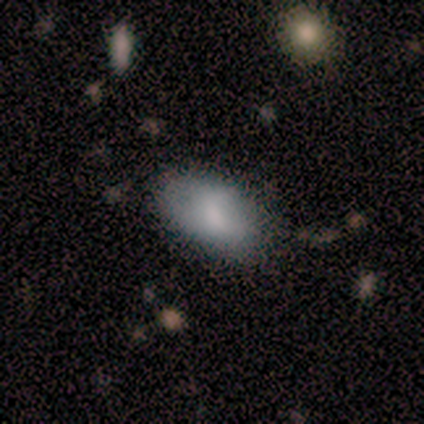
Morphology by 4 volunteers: Smooth or featured? 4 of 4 (100%) said smooth. How rounded? 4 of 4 (100%) said in between. Merging? 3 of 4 (75%) said none.